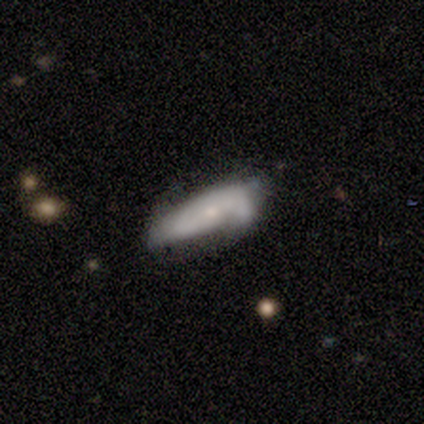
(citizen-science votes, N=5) Smooth or featured? smooth (40%, tied with featured or disk)
How rounded? in between (50%, tied with cigar-shaped)
Merging? none (75%)